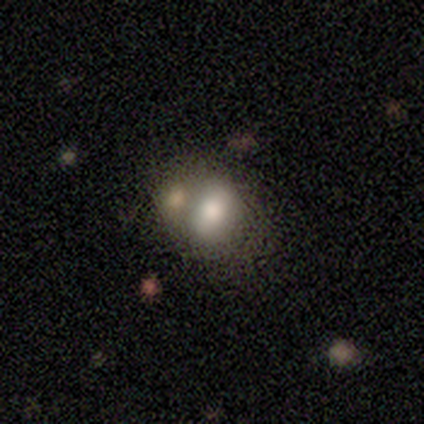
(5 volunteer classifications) Volunteers were most divided on "how rounded" (2-way tie): round: 50%, in between: 50%, cigar-shaped: 0%. More confident: smooth or featured — smooth (80%); merging — merger (60%).